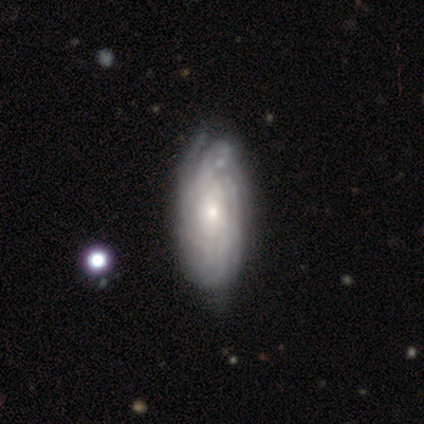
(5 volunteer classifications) A featured or disk galaxy (100%) with no bar (60%), tight (100%) spiral arms (100%) and a small central bulge (80%).

Vote fractions:
- Smooth or featured? featured or disk: 100% / smooth: 0% / star or artifact: 0%
- Edge-on disk? no: 100% / yes: 0%
- Bar? no: 60% / strong: 20% / weak: 20%
- Spiral arms? yes: 100% / no: 0%
- Spiral winding? tight: 100% / medium: 0% / loose: 0%
- Spiral arm count? can't tell: 60% / more than 4: 40% / 1: 0% / 2: 0% / 3: 0% / 4: 0%
- Bulge size? small: 80% / moderate: 20% / dominant: 0% / large: 0% / none: 0%
- Merging? minor disturbance: 60% / none: 40% / major disturbance: 0% / merger: 0%